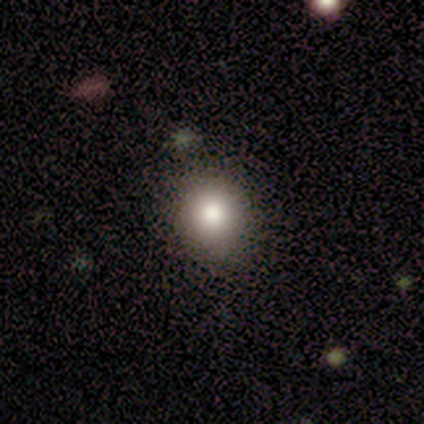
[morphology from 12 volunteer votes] This appears to be a smooth galaxy with no disk features (75%) that is round (78%). Merging: none (90%).